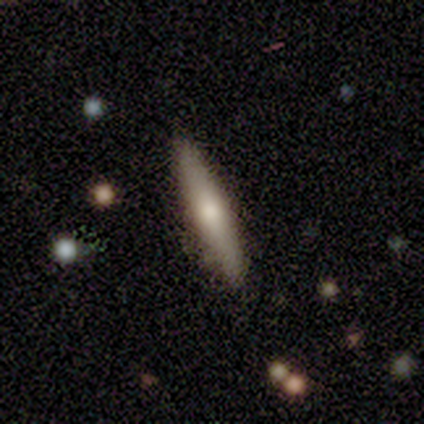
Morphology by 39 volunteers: Overall: smooth (49%; featured or disk 46%). How rounded: cigar-shaped (63%; in between 37%). Merging: none (57%).